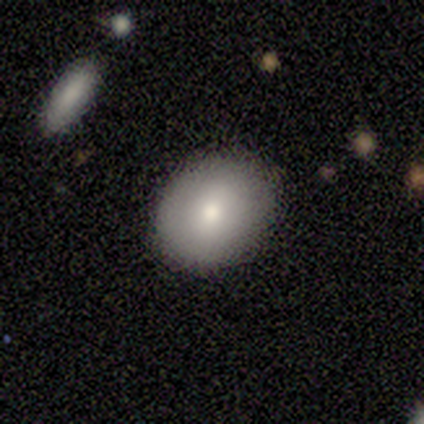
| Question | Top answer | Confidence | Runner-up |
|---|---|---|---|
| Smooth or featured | smooth | 80% | star or artifact (20%) |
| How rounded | round | 50% | tied: in between (50%) |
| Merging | none | 75% | minor disturbance (25%) |